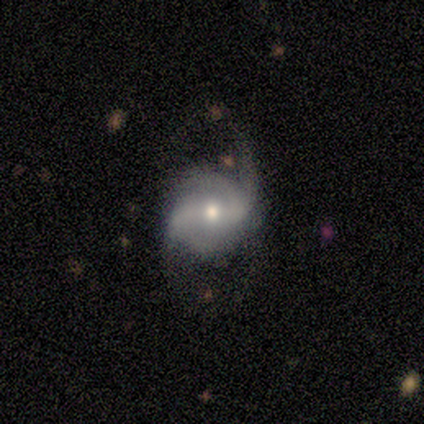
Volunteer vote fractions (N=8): Smooth or featured? featured or disk (75%)
Edge-on disk? no (100%)
Bar? strong (50%)
Spiral arms? yes (100%)
Spiral winding? tight (50%, tied with medium)
Spiral arm count? 4 (50%)
Bulge size? moderate (50%, tied with small)
Merging? none (67%)